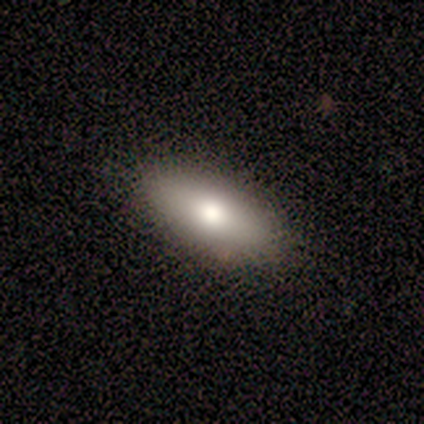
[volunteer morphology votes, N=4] smooth-or-featured: smooth: 75% | featured or disk: 25% | star or artifact: 0%
  how-rounded: in between: 67% | cigar-shaped: 33% | round: 0%
  merging: none: 100% | minor disturbance: 0% | major disturbance: 0% | merger: 0%